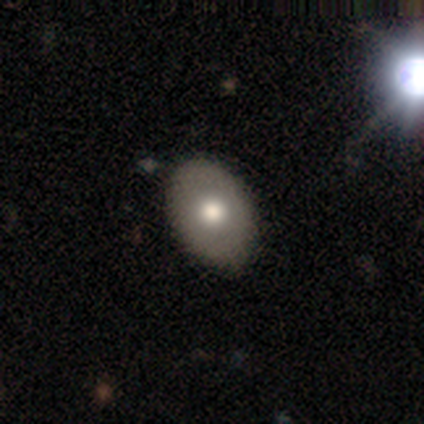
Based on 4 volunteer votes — This is likely a smooth galaxy (75%). How rounded: likely in between (67%). Merging: likely none (67%).